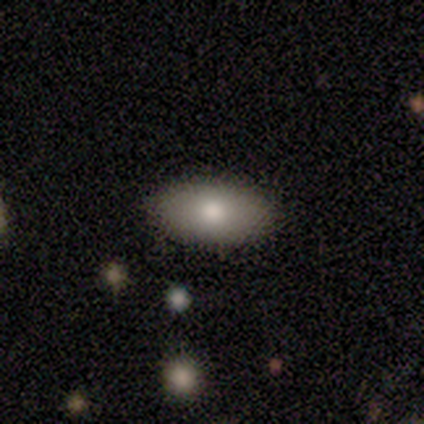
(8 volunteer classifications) A smooth galaxy with no disk features (100%) that is in between round and cigar-shaped (100%). Merging: none (75%).